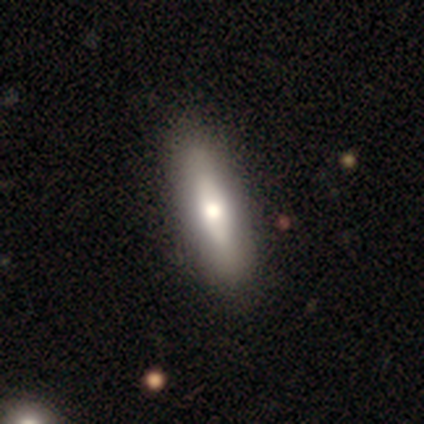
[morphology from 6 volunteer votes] type=smooth (67%); roundness=in between (50%, tied with cigar-shaped); merging=none (67%).